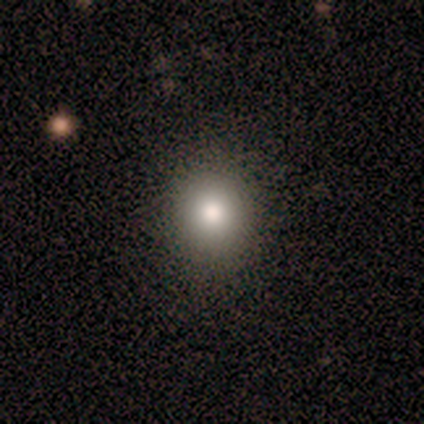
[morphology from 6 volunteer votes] Volunteers were most divided on "smooth or featured": smooth: 67%, featured or disk: 17%, star or artifact: 17%. More confident: merging — none (100%); how rounded — round (75%).